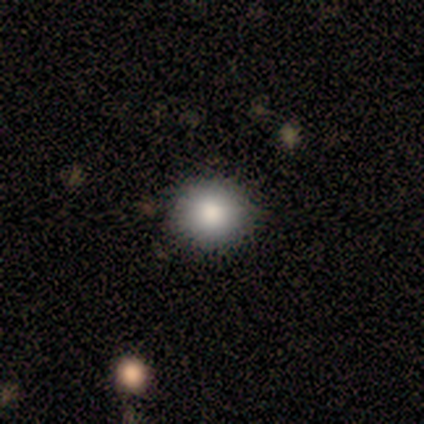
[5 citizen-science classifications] Smooth or featured? 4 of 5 (80%) said smooth. How rounded? 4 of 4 (100%) said round. Merging? 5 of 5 (100%) said none.